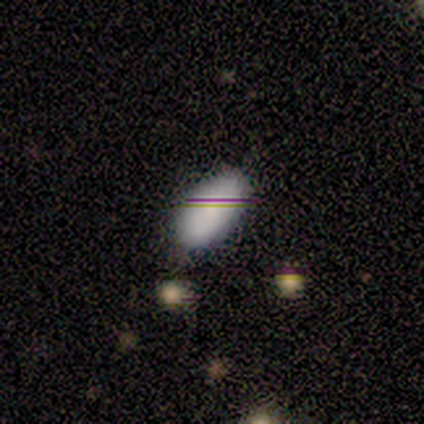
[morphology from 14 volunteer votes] Q: Smooth or featured?
A: smooth (93%); runner-up: star or artifact (7%)
Q: How rounded?
A: in between (100%)
Q: Merging?
A: none (92%); runner-up: minor disturbance (8%)